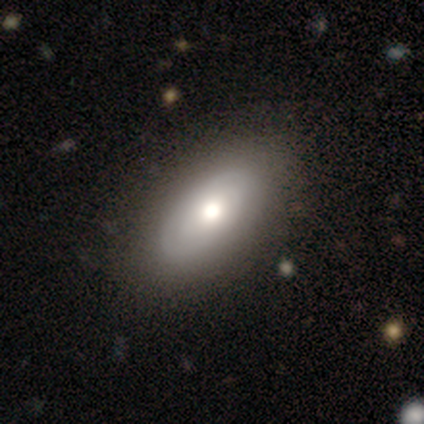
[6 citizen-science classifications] Overall: smooth (67%; featured or disk 33%). How rounded: in between (100%). Merging: none (83%).